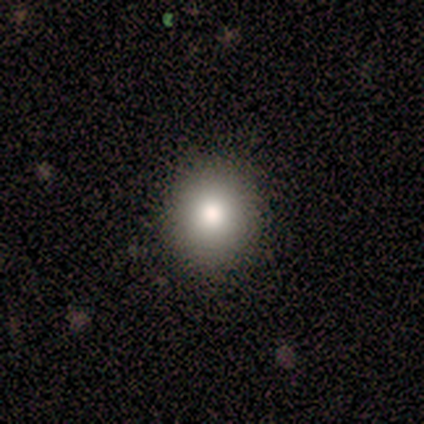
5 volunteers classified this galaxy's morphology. Smooth or featured?
  - smooth: 100% *
  - featured or disk: 0%
  - star or artifact: 0%
How rounded?
  - round: 60% *
  - in between: 40%
  - cigar-shaped: 0%
Merging?
  - none: 100% *
  - minor disturbance: 0%
  - major disturbance: 0%
  - merger: 0%